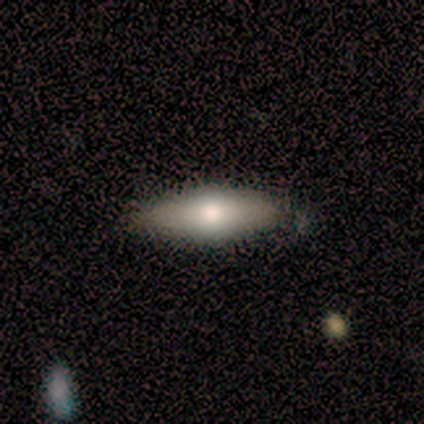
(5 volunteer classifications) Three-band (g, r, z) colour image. It shows a smooth galaxy with no disk features (100%) that is cigar-shaped (60%). Merging: none (60%).